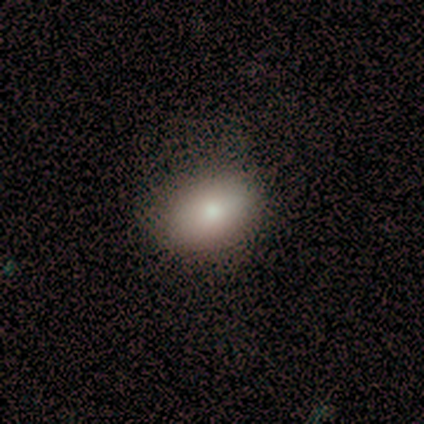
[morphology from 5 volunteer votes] Q: Smooth or featured?
A: smooth (100%)
Q: How rounded?
A: in between (80%); runner-up: round (20%)
Q: Merging?
A: none (80%); runner-up: minor disturbance (20%)